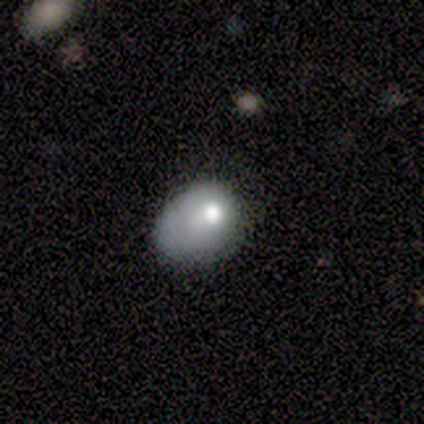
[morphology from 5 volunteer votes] A smooth galaxy with no disk features (80%) that is in between round and cigar-shaped (75%).

Vote fractions:
- Smooth or featured? smooth: 80% / featured or disk: 20% / star or artifact: 0%
- How rounded? in between: 75% / round: 25% / cigar-shaped: 0%
- Merging? minor disturbance: 60% / none: 40% / major disturbance: 0% / merger: 0%